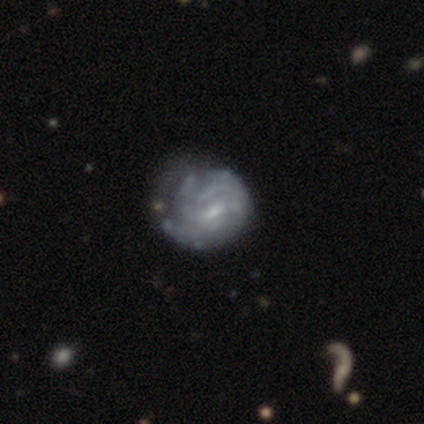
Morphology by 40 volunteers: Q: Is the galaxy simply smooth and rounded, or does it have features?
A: featured or disk — 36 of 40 (90%).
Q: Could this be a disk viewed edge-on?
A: no — 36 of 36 (100%).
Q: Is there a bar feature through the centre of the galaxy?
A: weak — 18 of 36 (50%).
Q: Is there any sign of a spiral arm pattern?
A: yes — 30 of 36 (83%).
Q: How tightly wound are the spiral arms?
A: tight — 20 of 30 (67%).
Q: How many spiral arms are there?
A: can't tell — 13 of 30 (43%).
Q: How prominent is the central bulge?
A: small — 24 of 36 (67%).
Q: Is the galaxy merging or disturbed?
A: none — 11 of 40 (28%, tied with minor disturbance).